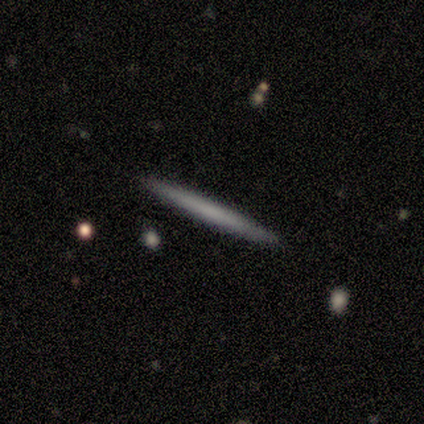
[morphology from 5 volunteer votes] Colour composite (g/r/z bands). It shows a smooth galaxy with no disk features (60%) that is cigar-shaped (100%). Merging: none (100%).